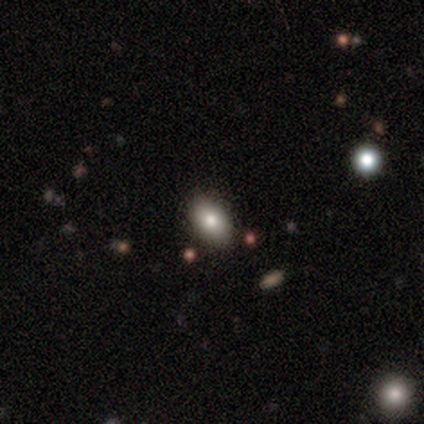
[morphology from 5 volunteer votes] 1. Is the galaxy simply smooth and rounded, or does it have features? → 80% smooth, 20% featured or disk, 0% star or artifact.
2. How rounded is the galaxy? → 100% in between, 0% round, 0% cigar-shaped.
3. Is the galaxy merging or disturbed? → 100% none, 0% minor disturbance, 0% major disturbance, 0% merger.